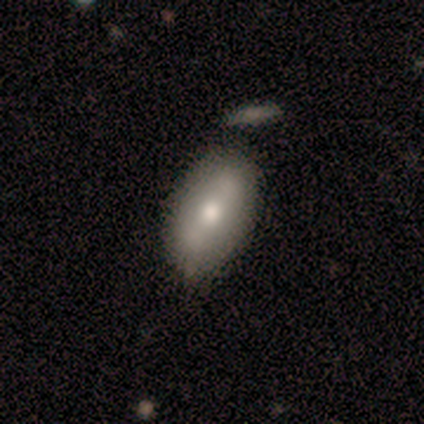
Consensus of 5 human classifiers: Smooth or featured?
  - smooth: 40% * (tied)
  - featured or disk: 40% * (tied)
  - star or artifact: 20%
How rounded?
  - in between: 100% *
  - round: 0%
  - cigar-shaped: 0%
Merging?
  - none: 100% *
  - minor disturbance: 0%
  - major disturbance: 0%
  - merger: 0%